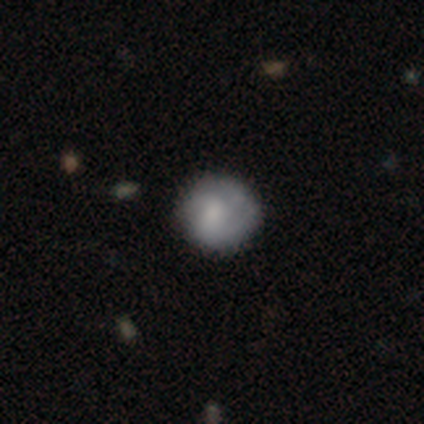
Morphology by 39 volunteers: Smooth or featured? smooth (59%)
How rounded? round (100%)
Merging? none (82%)